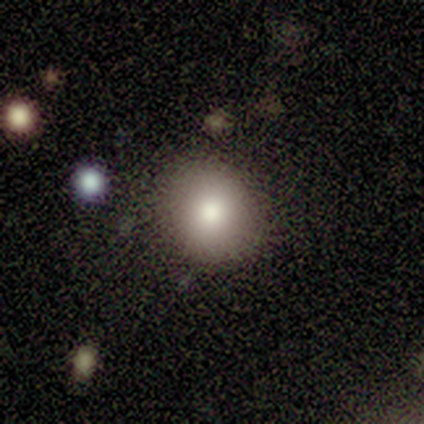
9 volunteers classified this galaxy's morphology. type=smooth (67%); roundness=round (67%); merging=none (100%).